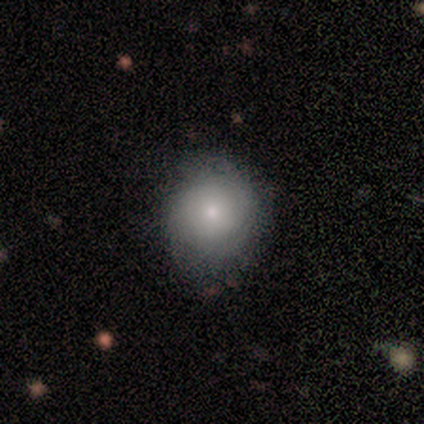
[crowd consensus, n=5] Smooth or featured? smooth (80%)
How rounded? round (100%)
Merging? none (40%, tied with minor disturbance)